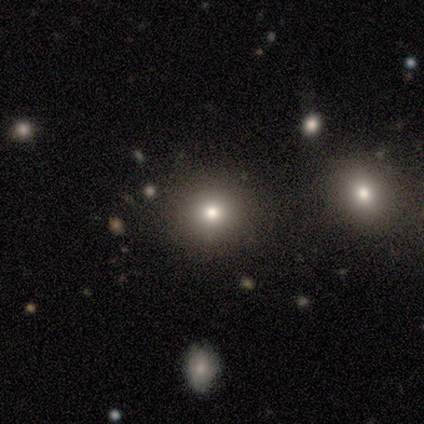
A smooth galaxy with no disk features (67%) that is round (100%). Merging: none (80%).